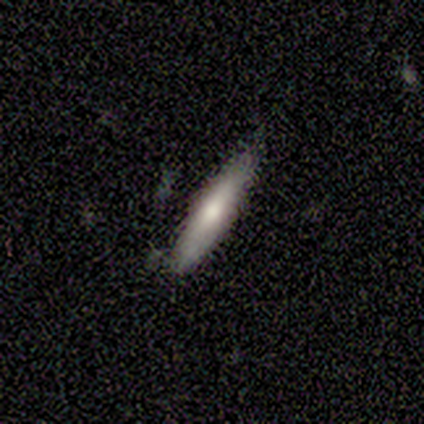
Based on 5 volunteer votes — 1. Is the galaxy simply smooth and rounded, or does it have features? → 60% smooth, 40% featured or disk, 0% star or artifact.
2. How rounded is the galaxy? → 100% cigar-shaped, 0% round, 0% in between.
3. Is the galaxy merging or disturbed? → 80% none, 20% minor disturbance, 0% major disturbance, 0% merger.